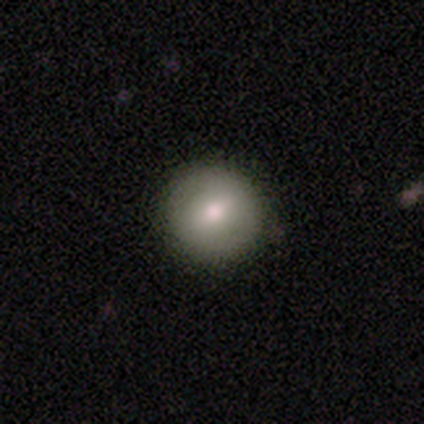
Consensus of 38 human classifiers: Smooth or featured? smooth (71%)
How rounded? round (93%)
Merging? none (86%)